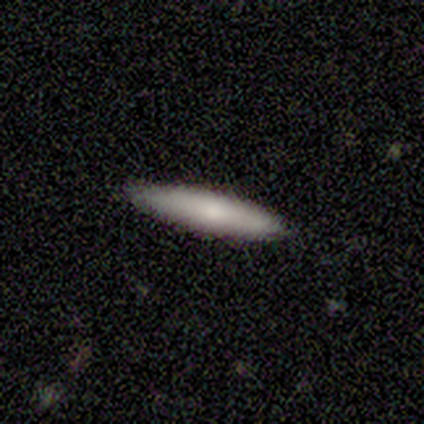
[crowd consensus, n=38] Q: Smooth or featured?
A: smooth (82%); runner-up: featured or disk (11%)
Q: How rounded?
A: cigar-shaped (97%); runner-up: in between (3%)
Q: Merging?
A: none (100%)